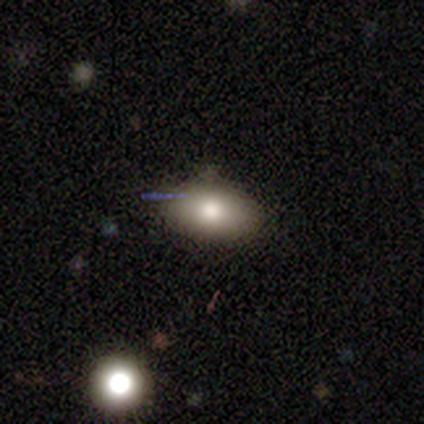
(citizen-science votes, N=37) A smooth galaxy with no disk features (81%) that is in between round and cigar-shaped (87%).

Vote fractions:
- Smooth or featured? smooth: 81% / featured or disk: 11% / star or artifact: 8%
- How rounded? in between: 87% / round: 10% / cigar-shaped: 3%
- Merging? none: 76% / minor disturbance: 15% / merger: 9% / major disturbance: 0%